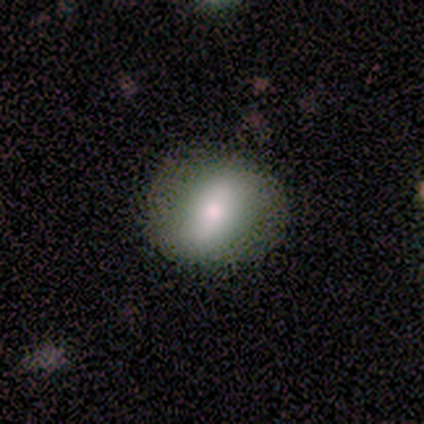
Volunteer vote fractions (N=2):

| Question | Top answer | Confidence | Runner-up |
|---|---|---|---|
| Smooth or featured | smooth | 50% | tied: featured or disk (50%) |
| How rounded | in between | 100% | — |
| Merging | none | 50% | tied: minor disturbance (50%) |